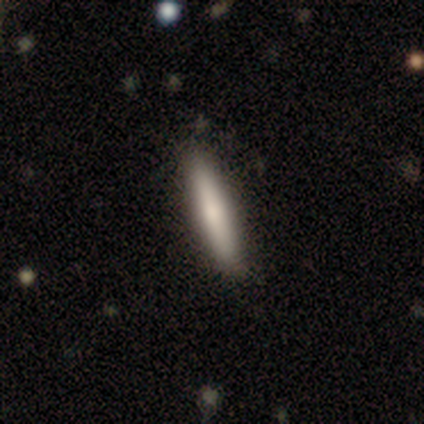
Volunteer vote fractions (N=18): smooth 94%, featured or disk 6%, star or artifact 0%. Down the decision tree: how rounded — cigar-shaped (88%); merging — none (89%).